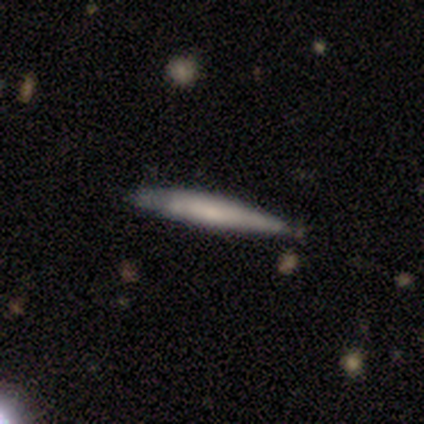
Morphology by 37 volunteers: Smooth or featured: featured or disk — 49% (smooth — 46%)
Edge-on disk: yes — 89% (no — 11%)
Edge-on bulge: none — 50% (rounded — 38%)
Merging: none — 69% (minor disturbance — 26%)